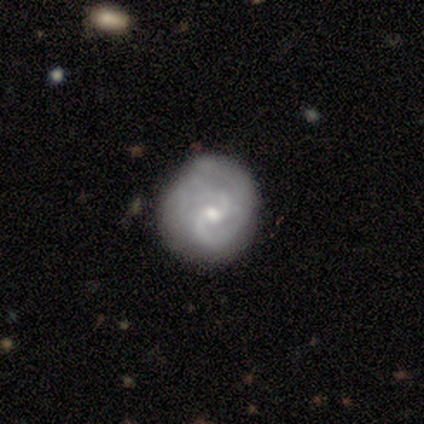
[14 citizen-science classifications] Smooth or featured: featured or disk — 86% (smooth — 14%)
Edge-on disk: no — 100%
Bar: weak — 50% (no — 42%)
Spiral arms: yes — 100%
Spiral winding: tight — 50% (tied with medium — 50%)
Spiral arm count: 2 — 83% (can't tell — 17%)
Bulge size: small — 58% (moderate — 42%)
Merging: none — 79% (minor disturbance — 7%)